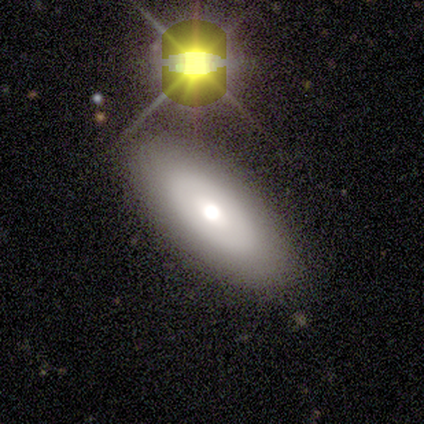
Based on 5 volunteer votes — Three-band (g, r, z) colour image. It shows a smooth galaxy with no disk features (80%) that is in between round and cigar-shaped (50%, tied with cigar-shaped). Merging: none (80%).